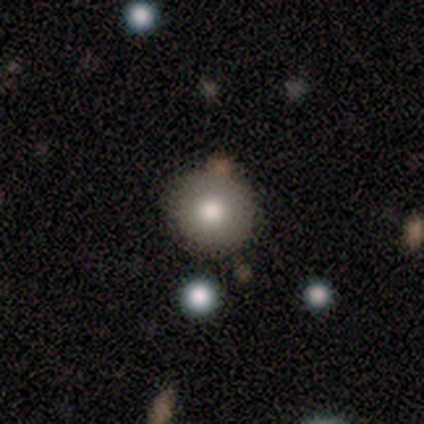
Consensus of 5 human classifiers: A smooth galaxy with no disk features (80%) that is round (100%).

Vote fractions:
- Smooth or featured? smooth: 80% / star or artifact: 20% / featured or disk: 0%
- How rounded? round: 100% / in between: 0% / cigar-shaped: 0%
- Merging? none: 75% / merger: 25% / minor disturbance: 0% / major disturbance: 0%